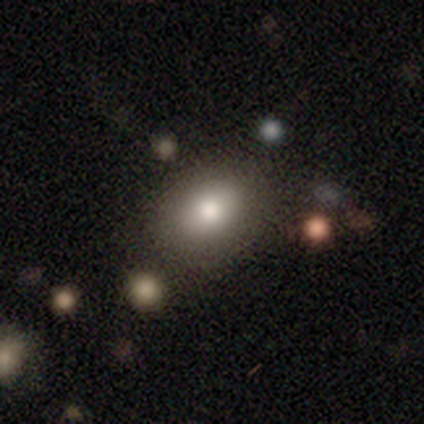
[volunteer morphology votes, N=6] This is clearly a smooth galaxy (100%). How rounded: possibly round (50%, tied with in between). Merging: likely none (67%).